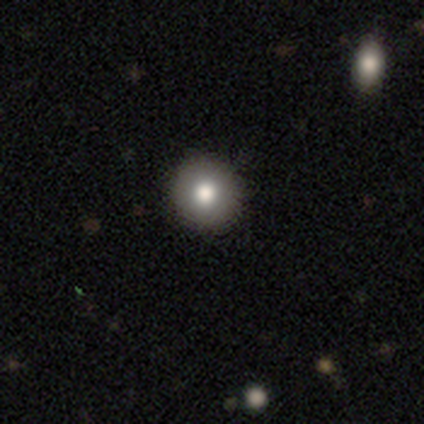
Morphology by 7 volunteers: This appears to be a smooth galaxy with no disk features (86%) that is round (100%). Merging: none (86%).